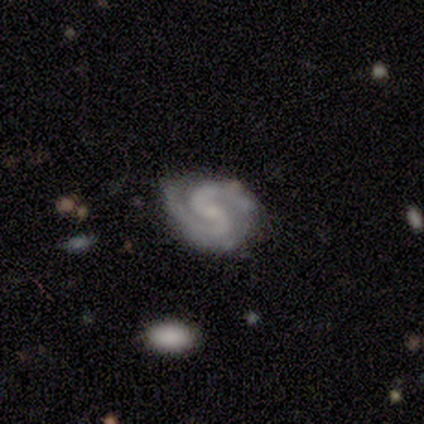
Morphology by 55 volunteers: A featured or disk galaxy (87%) with no bar (55%), 2 (91%) medium (59%) spiral arms (98%) and a small central bulge (47%). Merging: none (75%).